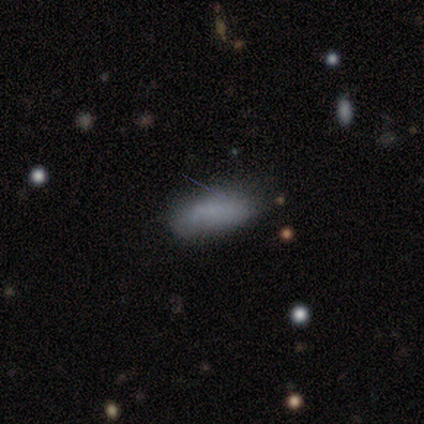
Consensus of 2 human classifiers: This is possibly a smooth galaxy (50%, tied with featured or disk). How rounded: clearly in between (100%). Merging: possibly none (50%, tied with minor disturbance).